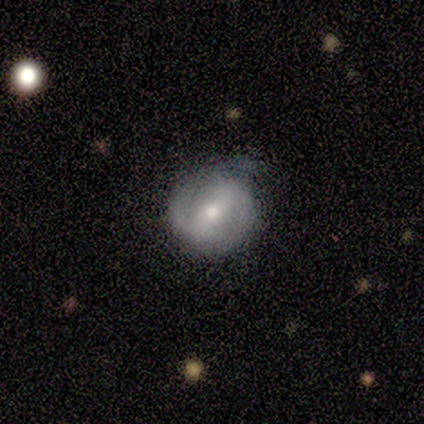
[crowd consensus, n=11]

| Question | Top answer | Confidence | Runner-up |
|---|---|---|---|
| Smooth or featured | featured or disk | 91% | smooth (9%) |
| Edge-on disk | no | 100% | — |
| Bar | strong | 60% | weak (20%) |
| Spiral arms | yes | 80% | no (20%) |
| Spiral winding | medium | 62% | loose (25%) |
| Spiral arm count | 2 | 88% | can't tell (12%) |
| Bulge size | moderate | 90% | small (10%) |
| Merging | minor disturbance | 55% | none (45%) |